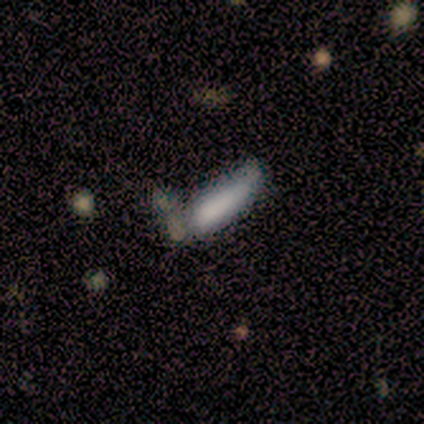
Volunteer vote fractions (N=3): Overall: featured or disk (67%; star or artifact 33%). Edge-on disk: no (100%). Bar: no (100%). Spiral arms: no (100%). Bulge size: none (100%). Merging: none (50%, tied with merger).